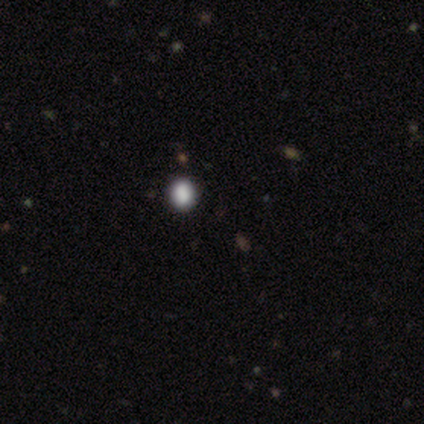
Q: Smooth or featured?
A: smooth (60%); runner-up: star or artifact (40%)
Q: How rounded?
A: round (100%)
Q: Merging?
A: none (100%)